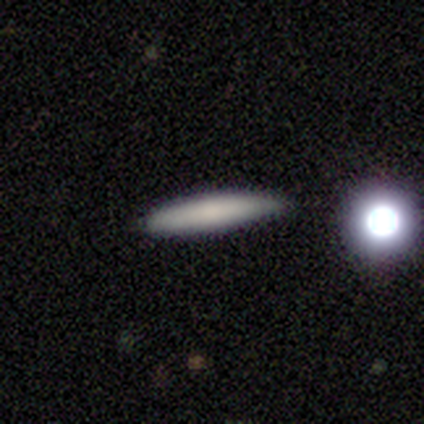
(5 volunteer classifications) A smooth galaxy with no disk features (100%) that is cigar-shaped (100%).

Vote fractions:
- Smooth or featured? smooth: 100% / featured or disk: 0% / star or artifact: 0%
- How rounded? cigar-shaped: 100% / round: 0% / in between: 0%
- Merging? none: 60% / minor disturbance: 40% / major disturbance: 0% / merger: 0%